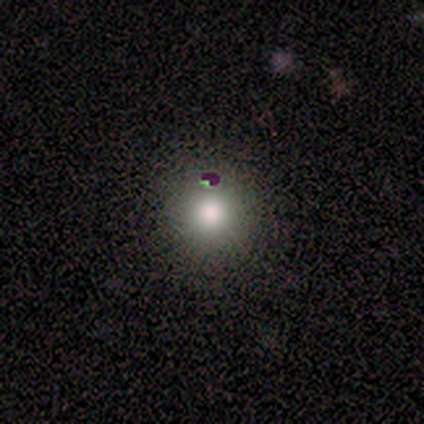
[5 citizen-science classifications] Smooth or featured? smooth (100%)
How rounded? round (60%)
Merging? none (40%)